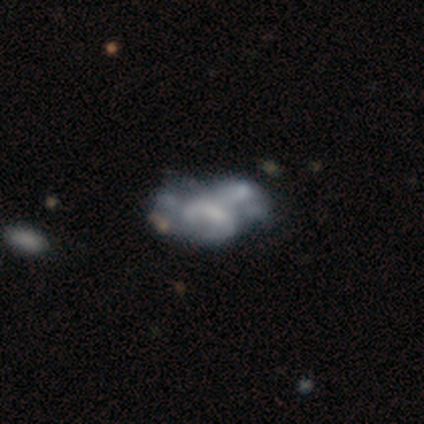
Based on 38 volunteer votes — Morphology: type=featured or disk (58%); edge-on=no (100%); bar=no (82%); spiral arms=no (86%); bulge=none (50%); merging=merger (33%).